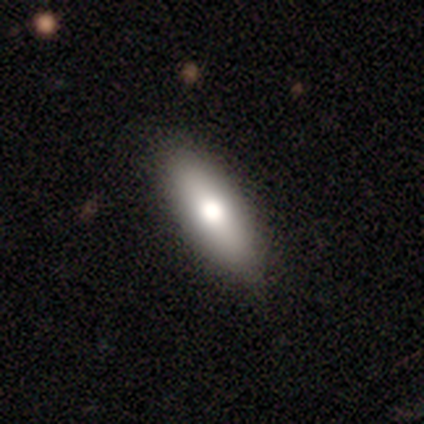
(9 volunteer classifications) Smooth or featured? 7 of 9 (78%) said smooth. How rounded? 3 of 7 (43%, tied with cigar-shaped) said in between. Merging? 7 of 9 (78%) said none.